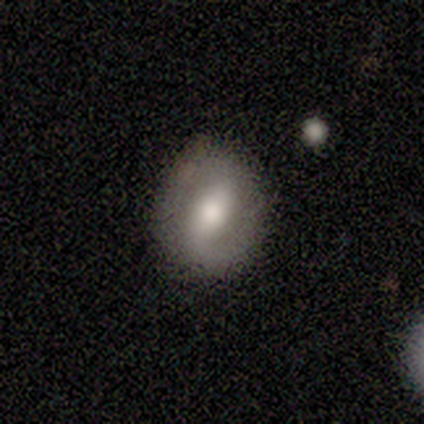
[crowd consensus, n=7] smooth-or-featured: smooth: 57% | featured or disk: 43% | star or artifact: 0%
  how-rounded: round: 50% (tied) | in between: 50% (tied) | cigar-shaped: 0%
  merging: none: 100% | minor disturbance: 0% | major disturbance: 0% | merger: 0%